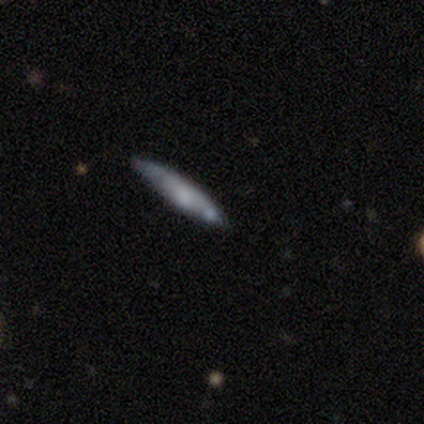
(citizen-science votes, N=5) Overall: smooth (60%; featured or disk 40%). How rounded: cigar-shaped (100%). Merging: none (100%).